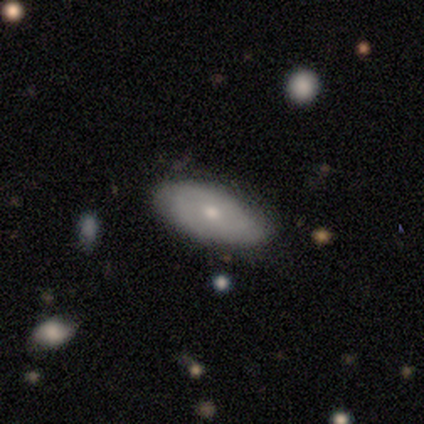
Volunteers were most divided on "smooth or featured": smooth: 49%, featured or disk: 41%, star or artifact: 11%. More confident: merging — none (97%); how rounded — in between (94%).